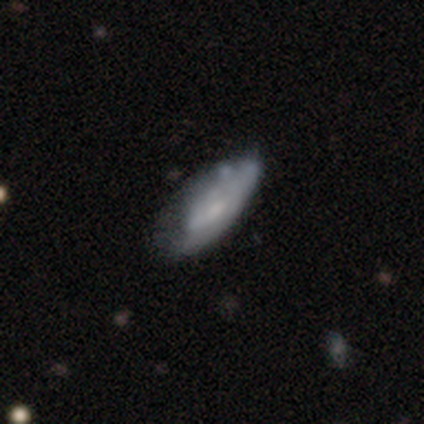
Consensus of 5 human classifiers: Overall: featured or disk (60%; smooth 20%). Edge-on disk: no (100%). Bar: weak (67%; no 33%). Spiral arms: no (100%). Bulge size: none (67%; large 33%). Merging: none (50%; minor disturbance 25%).